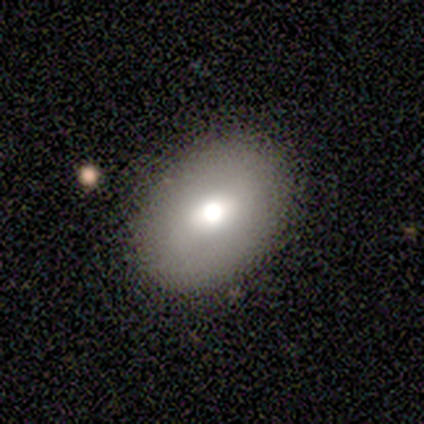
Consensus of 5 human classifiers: Smooth or featured? 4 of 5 (80%) said smooth. How rounded? 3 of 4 (75%) said in between. Merging? 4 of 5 (80%) said none.